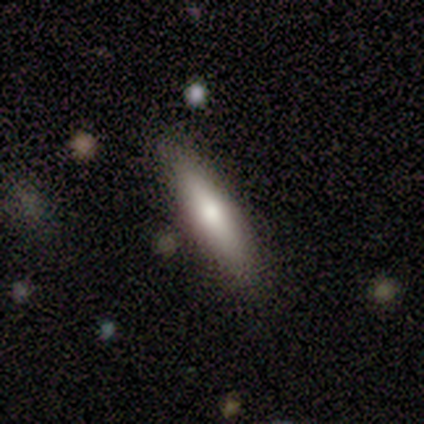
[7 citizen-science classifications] This appears to be a smooth galaxy with no disk features (86%) that is cigar-shaped (100%). Merging: none (100%).